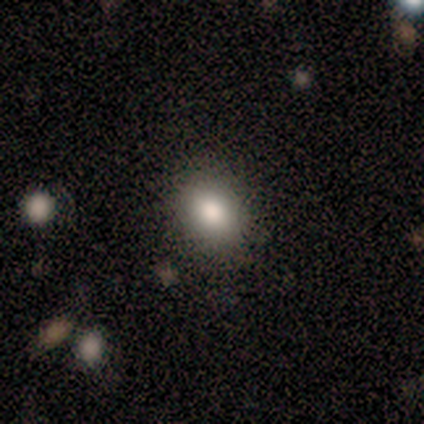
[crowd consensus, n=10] Smooth or featured: smooth — 70% (star or artifact — 20%)
How rounded: in between — 57% (round — 43%)
Merging: none — 100%